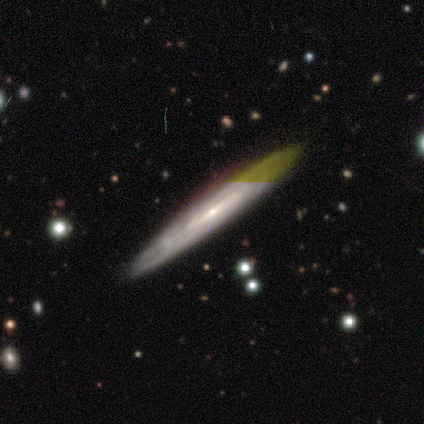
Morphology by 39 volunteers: Smooth or featured? featured or disk (77%)
Edge-on disk? no (63%)
Bar? strong (47%)
Spiral arms? yes (79%)
Spiral winding? tight (60%)
Spiral arm count? can't tell (67%)
Bulge size? small (63%)
Merging? none (87%)